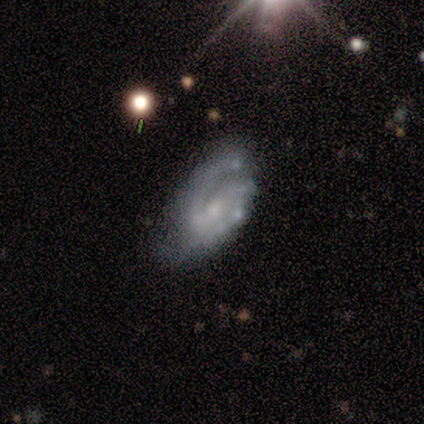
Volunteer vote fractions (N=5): featured or disk 80%, star or artifact 20%, smooth 0%. Down the decision tree: edge-on disk — no (100%); bar — no (75%); spiral arms — yes (100%); spiral arm count — can't tell (50%); spiral winding — medium (75%); bulge size — small (75%); merging — none (50%).